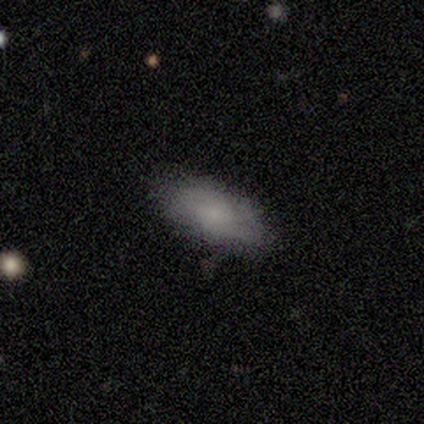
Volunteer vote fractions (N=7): Morphology: type=smooth (86%); roundness=in between (100%); merging=none (86%).